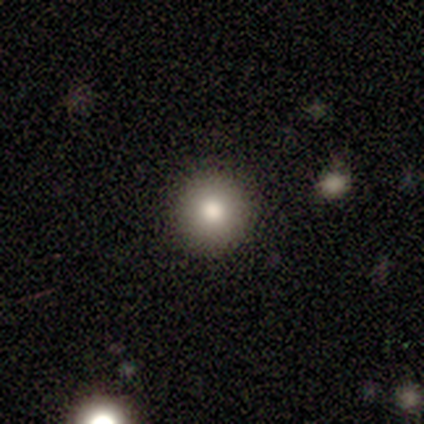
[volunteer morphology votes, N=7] Q: Smooth or featured?
A: smooth (86%); runner-up: featured or disk (14%)
Q: How rounded?
A: round (100%)
Q: Merging?
A: none (100%)